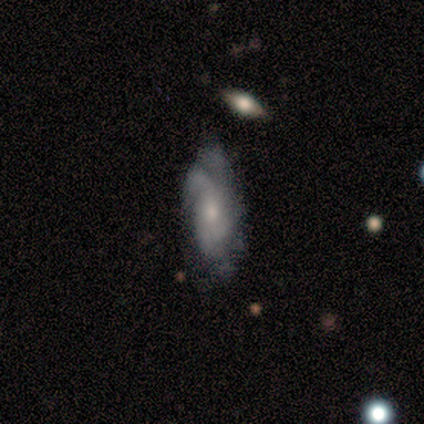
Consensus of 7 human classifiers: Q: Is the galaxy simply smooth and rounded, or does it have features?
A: featured or disk — 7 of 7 (100%).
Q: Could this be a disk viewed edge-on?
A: no — 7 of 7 (100%).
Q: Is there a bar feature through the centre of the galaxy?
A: no — 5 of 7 (71%).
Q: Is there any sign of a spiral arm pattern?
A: yes — 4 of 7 (57%).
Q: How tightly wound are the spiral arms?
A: medium — 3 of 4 (75%).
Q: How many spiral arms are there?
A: can't tell — 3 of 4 (75%).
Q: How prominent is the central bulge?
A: small — 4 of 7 (57%).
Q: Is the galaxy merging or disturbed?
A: none — 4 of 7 (57%).